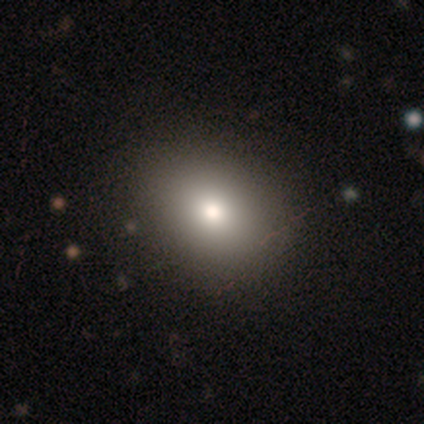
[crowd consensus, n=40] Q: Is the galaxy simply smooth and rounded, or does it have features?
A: smooth — 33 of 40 (82%).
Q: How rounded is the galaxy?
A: round — 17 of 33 (52%).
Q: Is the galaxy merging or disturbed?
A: none — 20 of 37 (54%).